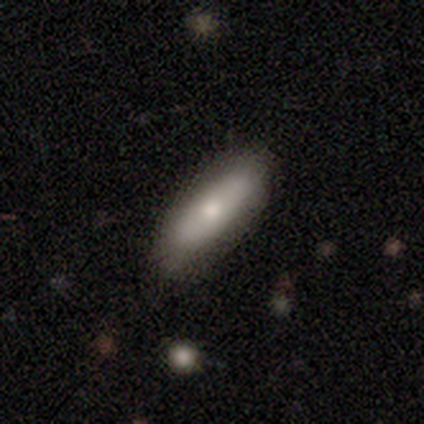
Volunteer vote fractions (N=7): A smooth galaxy with no disk features (86%) that is in between round and cigar-shaped (67%). Merging: none (100%).